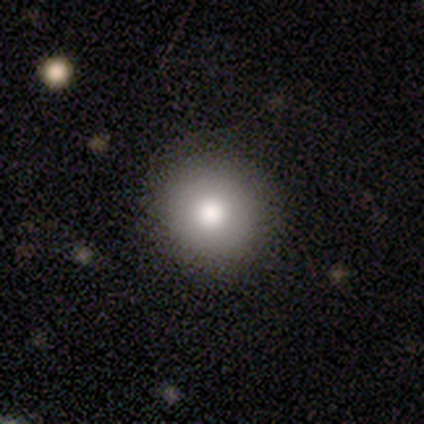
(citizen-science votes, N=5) smooth-or-featured: smooth: 80% | star or artifact: 20% | featured or disk: 0%
  how-rounded: round: 100% | in between: 0% | cigar-shaped: 0%
  merging: none: 75% | minor disturbance: 25% | major disturbance: 0% | merger: 0%